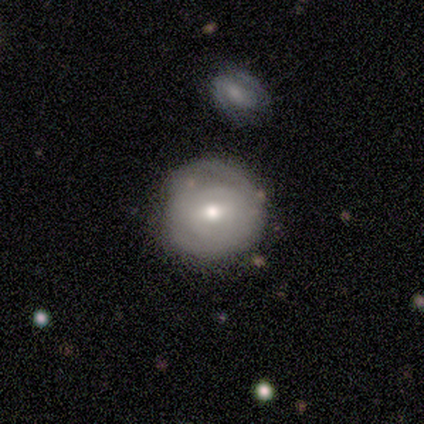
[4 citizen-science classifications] A featured or disk galaxy (100%) with a weak bar (100%), no spiral arms (75%) and a small central bulge (75%). Merging: none (100%).